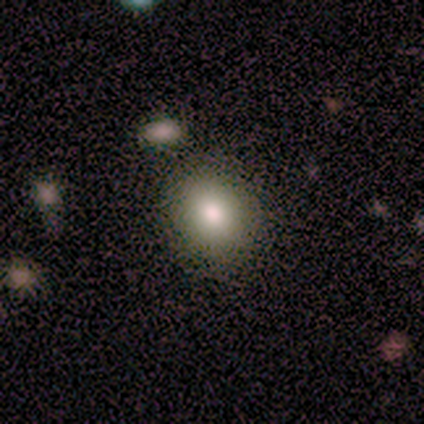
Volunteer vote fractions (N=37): smooth-or-featured: smooth: 89% | featured or disk: 8% | star or artifact: 3%
  how-rounded: round: 79% | in between: 21% | cigar-shaped: 0%
  merging: none: 89% | minor disturbance: 8% | merger: 3% | major disturbance: 0%